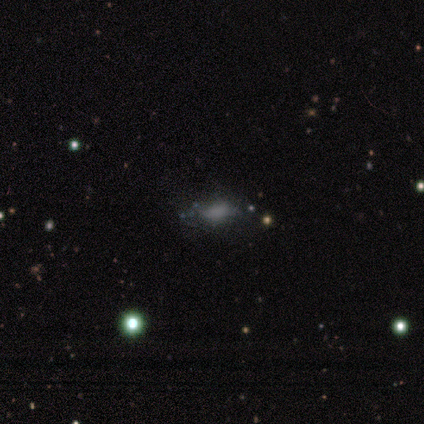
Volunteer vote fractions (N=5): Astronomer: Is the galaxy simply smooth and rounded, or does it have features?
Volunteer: featured or disk — 40%, tied with star or artifact at 40%.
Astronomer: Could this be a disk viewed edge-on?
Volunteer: no — 100%.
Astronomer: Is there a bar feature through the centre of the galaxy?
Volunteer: no — 100%.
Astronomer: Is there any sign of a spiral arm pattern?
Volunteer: no — 100%.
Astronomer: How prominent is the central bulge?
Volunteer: none — 100%.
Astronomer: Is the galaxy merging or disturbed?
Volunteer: none — 67%.